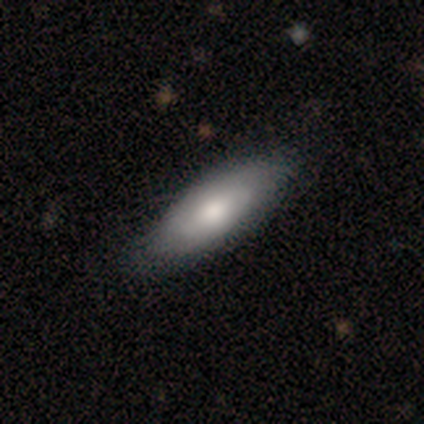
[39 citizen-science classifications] This is possibly a smooth galaxy (54%). How rounded: clearly in between (81%). Merging: possibly none (51%).